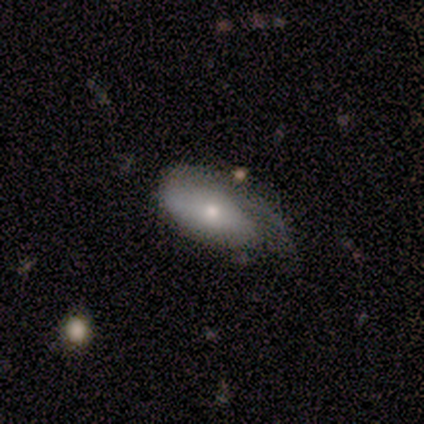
featured or disk 60%, smooth 40%, star or artifact 0%. Down the decision tree: edge-on disk — no (100%); bar — no (100%); spiral arms — no (67%); bulge size — small (67%); merging — minor disturbance (60%).